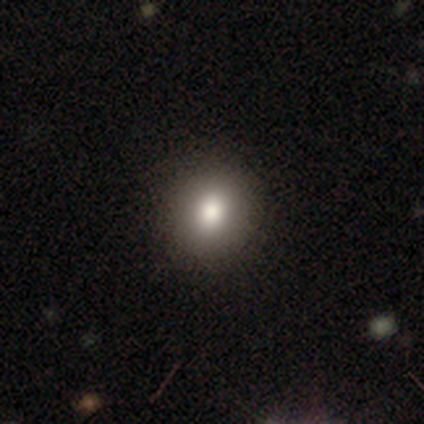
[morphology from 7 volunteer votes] smooth 57%, star or artifact 43%, featured or disk 0%. Down the decision tree: how rounded — round (100%); merging — none (100%).